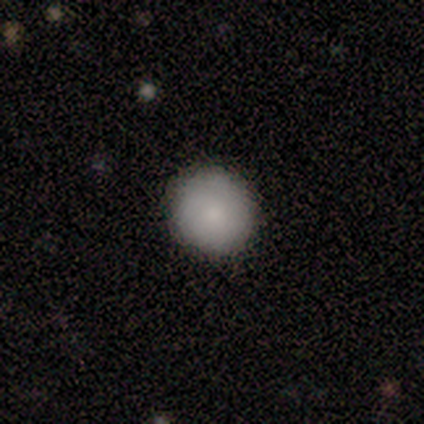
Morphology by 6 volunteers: smooth-or-featured: smooth: 83% | featured or disk: 17% | star or artifact: 0%
  how-rounded: round: 100% | in between: 0% | cigar-shaped: 0%
  merging: none: 83% | minor disturbance: 17% | major disturbance: 0% | merger: 0%